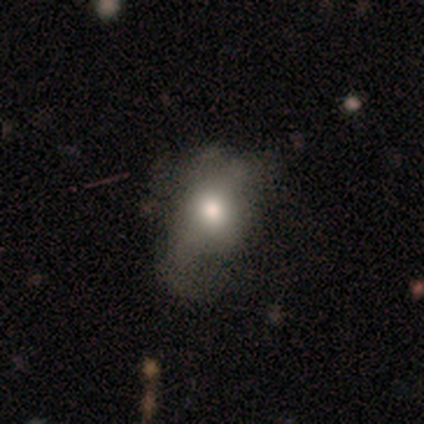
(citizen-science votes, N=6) Smooth or featured? 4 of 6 (67%) said smooth. How rounded? 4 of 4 (100%) said in between. Merging? 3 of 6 (50%) said major disturbance.